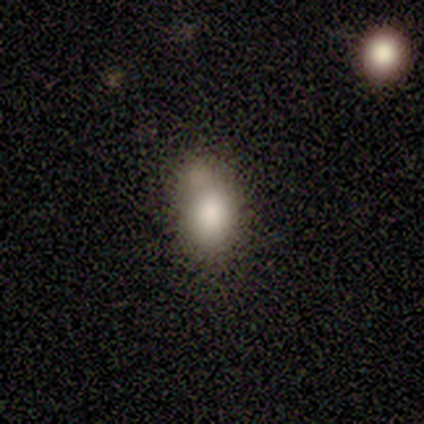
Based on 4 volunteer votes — A smooth galaxy with no disk features (100%) that is in between round and cigar-shaped (75%).

Vote fractions:
- Smooth or featured? smooth: 100% / featured or disk: 0% / star or artifact: 0%
- How rounded? in between: 75% / round: 25% / cigar-shaped: 0%
- Merging? none: 50% / major disturbance: 25% / merger: 25% / minor disturbance: 0%